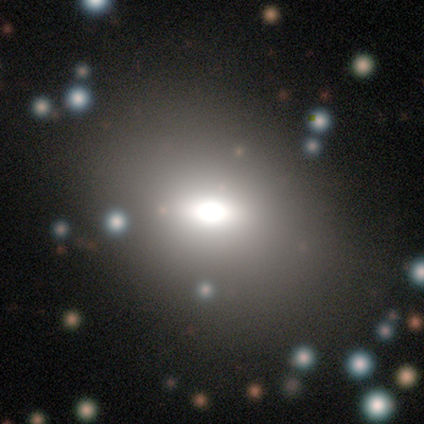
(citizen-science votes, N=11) Smooth or featured?
  - smooth: 73% *
  - star or artifact: 18%
  - featured or disk: 9%
How rounded?
  - in between: 75% *
  - round: 25%
  - cigar-shaped: 0%
Merging?
  - none: 100% *
  - minor disturbance: 0%
  - major disturbance: 0%
  - merger: 0%